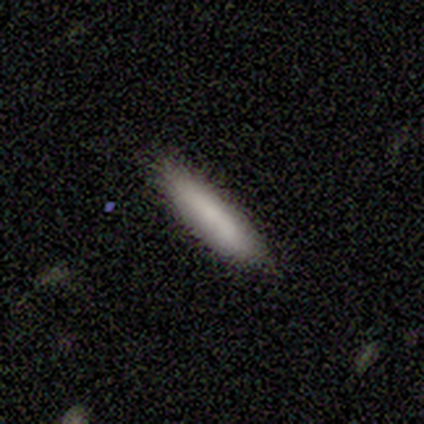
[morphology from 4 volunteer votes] type=smooth (75%); roundness=cigar-shaped (67%); merging=none (100%).